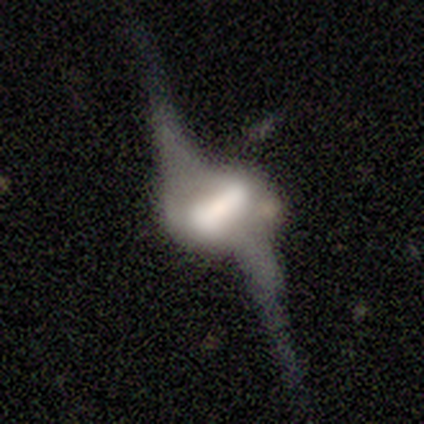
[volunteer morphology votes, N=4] A featured or disk galaxy (100%) with a strong bar (67%), 2 (100%) loose (100%) spiral arms (100%) and a dominant central bulge (33%, tied with moderate and small).

Vote fractions:
- Smooth or featured? featured or disk: 100% / smooth: 0% / star or artifact: 0%
- Edge-on disk? no: 75% / yes: 25%
- Bar? strong: 67% / weak: 33% / no: 0%
- Spiral arms? yes: 100% / no: 0%
- Spiral winding? loose: 100% / tight: 0% / medium: 0%
- Spiral arm count? 2: 100% / 1: 0% / 3: 0% / 4: 0% / more than 4: 0% / can't tell: 0%
- Bulge size? dominant: 33% (tied) / moderate: 33% (tied) / small: 33% (tied) / large: 0% / none: 0%
- Merging? major disturbance: 50% / minor disturbance: 25% / merger: 25% / none: 0%